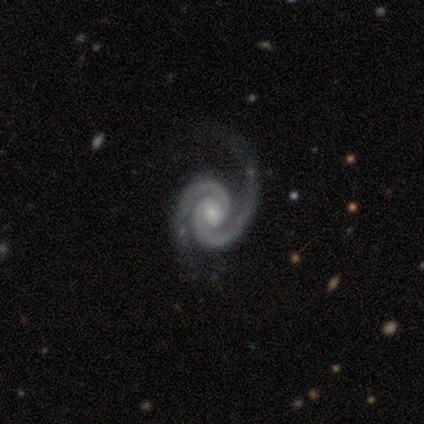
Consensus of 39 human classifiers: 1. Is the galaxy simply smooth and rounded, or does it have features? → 95% featured or disk, 3% smooth, 3% star or artifact.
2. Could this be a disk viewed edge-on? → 100% no, 0% yes.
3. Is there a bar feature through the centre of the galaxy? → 73% no, 19% weak, 8% strong.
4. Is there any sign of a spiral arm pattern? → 97% yes, 3% no.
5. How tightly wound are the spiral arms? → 67% tight, 19% medium, 14% loose.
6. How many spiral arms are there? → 100% 2, 0% 1, 0% 3, 0% 4, 0% more than 4, 0% can't tell.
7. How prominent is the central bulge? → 49% small, 41% moderate, 5% large, 3% dominant, 3% none.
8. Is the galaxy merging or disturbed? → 39% none, 16% minor disturbance, 11% major disturbance, 0% merger.